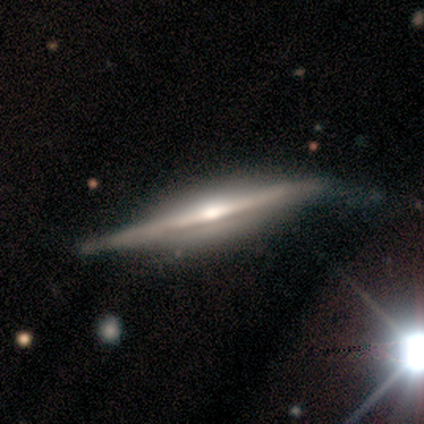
Q: Smooth or featured?
A: featured or disk (86%); runner-up: smooth (7%)
Q: Edge-on disk?
A: yes (100%)
Q: Edge-on bulge?
A: rounded (100%)
Q: Merging?
A: none (85%); runner-up: minor disturbance (15%)